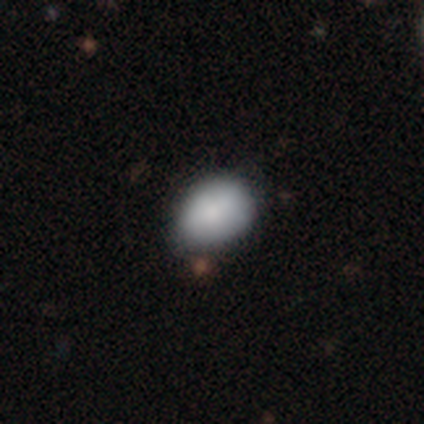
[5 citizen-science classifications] This appears to be a smooth galaxy with no disk features (80%) that is in between round and cigar-shaped (100%). Merging: none (75%).